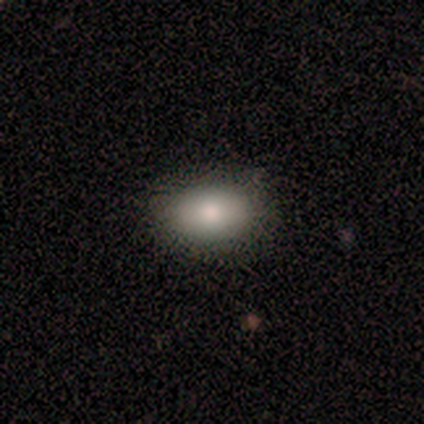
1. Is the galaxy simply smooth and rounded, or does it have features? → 100% smooth, 0% featured or disk, 0% star or artifact.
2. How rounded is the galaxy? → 60% in between, 40% round, 0% cigar-shaped.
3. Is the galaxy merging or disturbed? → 100% none, 0% minor disturbance, 0% major disturbance, 0% merger.